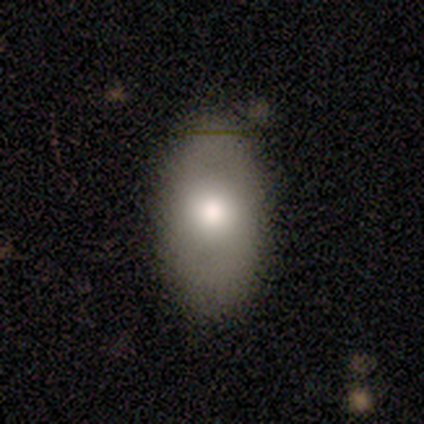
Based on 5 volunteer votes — Smooth or featured?
  - smooth: 80% *
  - featured or disk: 20%
  - star or artifact: 0%
How rounded?
  - in between: 100% *
  - round: 0%
  - cigar-shaped: 0%
Merging?
  - none: 100% *
  - minor disturbance: 0%
  - major disturbance: 0%
  - merger: 0%